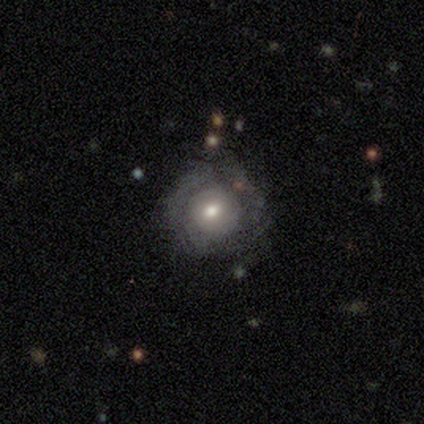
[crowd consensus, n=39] featured or disk 51%, smooth 41%, star or artifact 8%. Down the decision tree: edge-on disk — no (95%); bar — no (79%); spiral arms — no (68%); bulge size — moderate (47%); merging — none (56%).